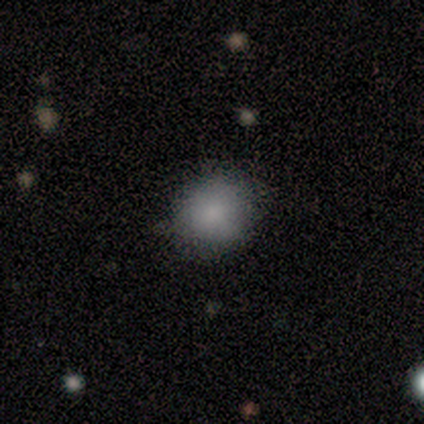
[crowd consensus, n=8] A smooth galaxy with no disk features (88%) that is round (71%). Merging: none (43%, tied with minor disturbance).